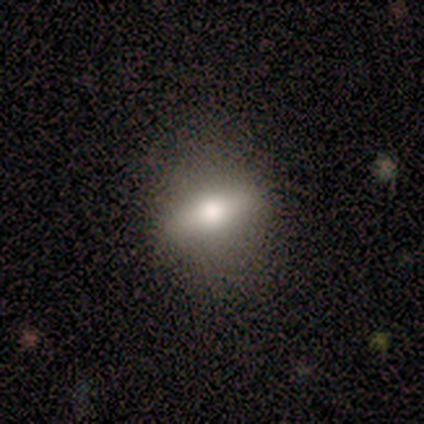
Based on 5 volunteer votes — Q: Smooth or featured?
A: smooth (80%); runner-up: featured or disk (20%)
Q: How rounded?
A: in between (75%); runner-up: round (25%)
Q: Merging?
A: none (60%); runner-up: minor disturbance (40%)